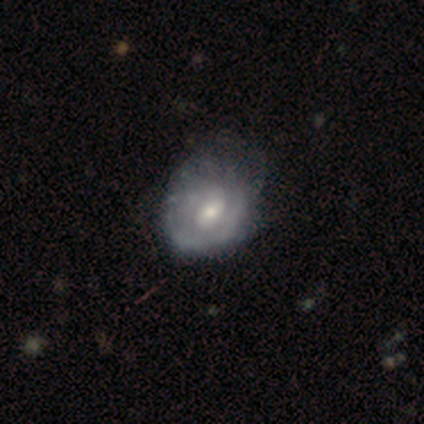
Q: Smooth or featured?
A: featured or disk (75%); runner-up: smooth (25%)
Q: Edge-on disk?
A: no (100%)
Q: Bar?
A: no (60%); runner-up: weak (37%)
Q: Spiral arms?
A: yes (57%); runner-up: no (43%)
Q: Spiral winding?
A: medium (53%); runner-up: tight (35%)
Q: Spiral arm count?
A: can't tell (65%); runner-up: 2 (24%)
Q: Bulge size?
A: moderate (53%); runner-up: small (40%)
Q: Merging?
A: major disturbance (30%); runner-up: none (28%)